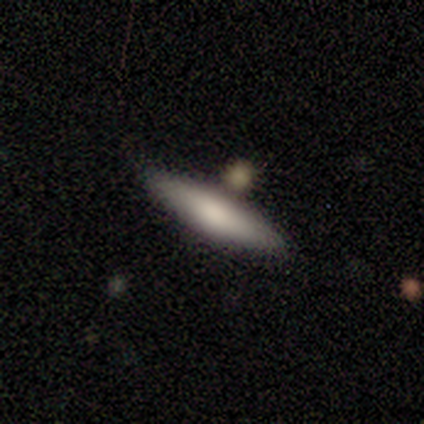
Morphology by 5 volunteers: smooth_or_featured: smooth (p=1.00)
how_rounded: cigar-shaped (p=0.60) [alt: in between p=0.40]
merging: none (p=1.00)